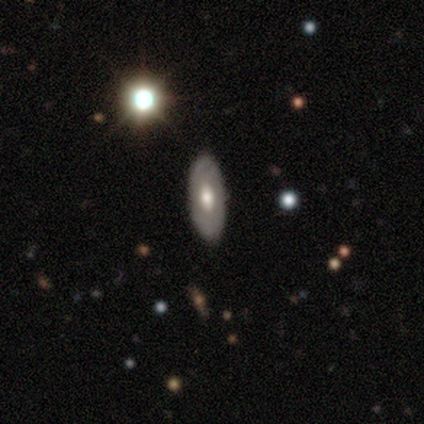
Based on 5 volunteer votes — Smooth or featured? featured or disk (60%)
Edge-on disk? no (67%)
Bar? weak (50%, tied with no)
Spiral arms? no (100%)
Bulge size? moderate (50%, tied with small)
Merging? none (80%)